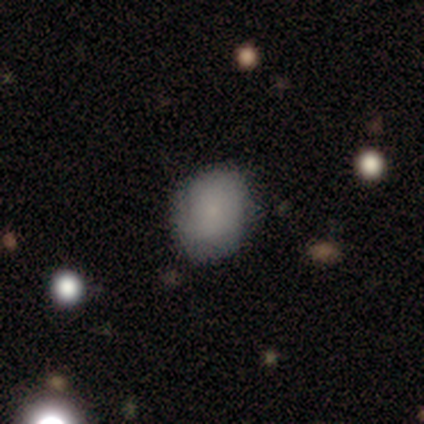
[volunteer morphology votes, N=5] Volunteers were most divided on "how rounded" (2-way tie): round: 50%, in between: 50%, cigar-shaped: 0%. More confident: smooth or featured — smooth (80%); merging — none (80%).